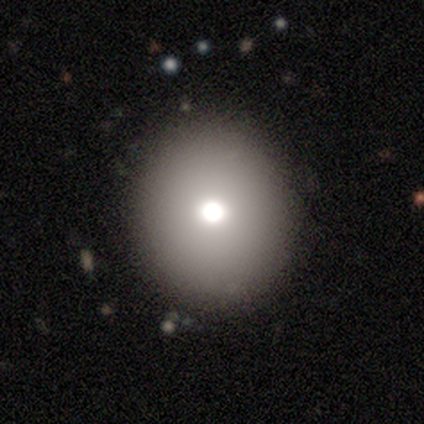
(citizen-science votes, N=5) Overall: smooth (80%). How rounded: round (75%). Merging: none (60%; minor disturbance 40%).